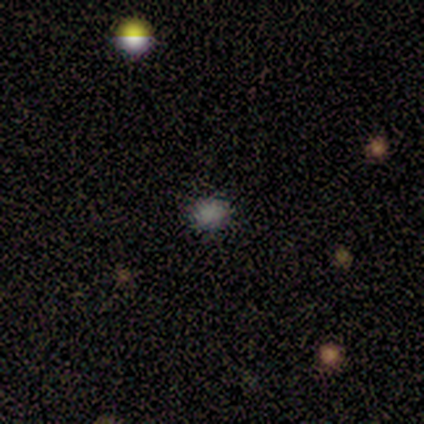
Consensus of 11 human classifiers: This appears to be a smooth galaxy with no disk features (55%) that is round (67%). Merging: none (100%).